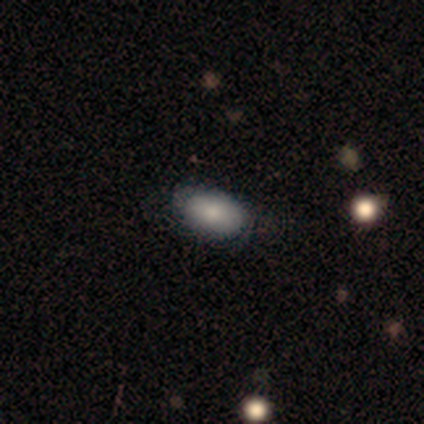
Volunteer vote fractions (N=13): This appears to be a smooth galaxy with no disk features (77%) that is in between round and cigar-shaped (100%). Merging: none (92%).